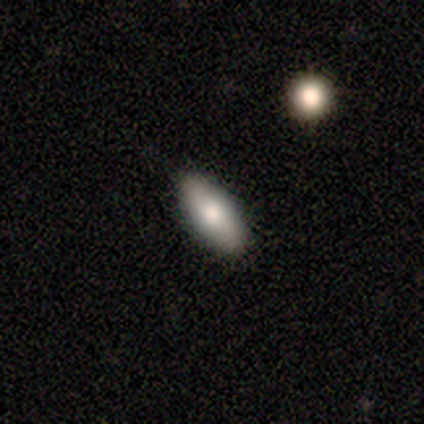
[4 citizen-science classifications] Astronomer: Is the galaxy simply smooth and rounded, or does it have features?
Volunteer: smooth — 75%.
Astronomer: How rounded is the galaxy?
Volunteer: in between — 100%.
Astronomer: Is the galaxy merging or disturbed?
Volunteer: none — 100%.